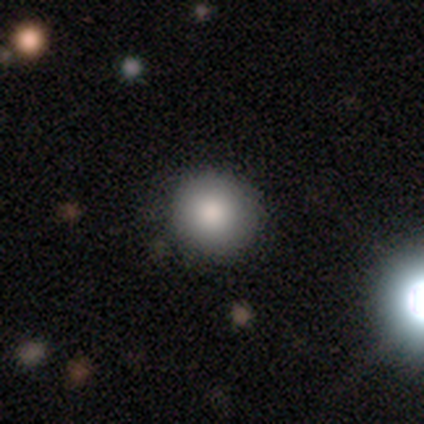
A smooth galaxy with no disk features (86%) that is round (96%). Merging: none (88%).